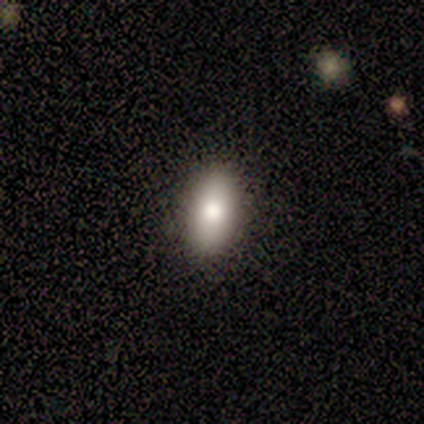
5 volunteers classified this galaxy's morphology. A smooth galaxy with no disk features (80%) that is in between round and cigar-shaped (100%).

Vote fractions:
- Smooth or featured? smooth: 80% / featured or disk: 20% / star or artifact: 0%
- How rounded? in between: 100% / round: 0% / cigar-shaped: 0%
- Merging? none: 100% / minor disturbance: 0% / major disturbance: 0% / merger: 0%